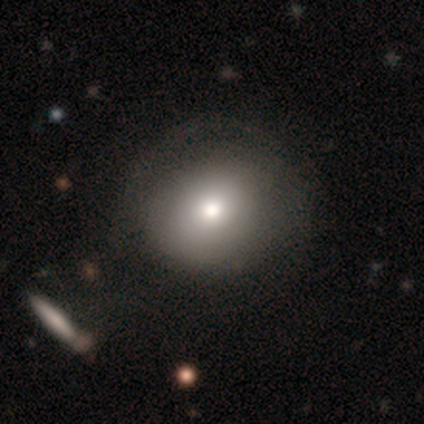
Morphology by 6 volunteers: A smooth galaxy with no disk features (67%) that is round (75%). Merging: none (75%).